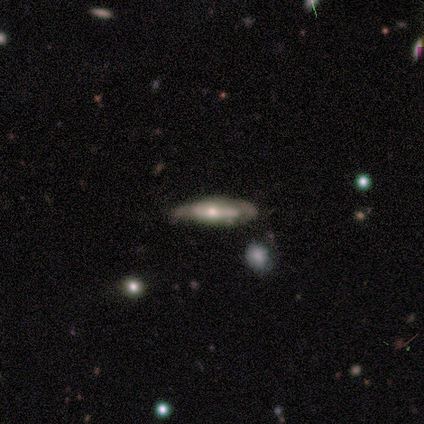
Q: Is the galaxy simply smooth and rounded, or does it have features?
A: featured or disk — 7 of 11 (64%).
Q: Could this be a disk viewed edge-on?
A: yes — 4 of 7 (57%).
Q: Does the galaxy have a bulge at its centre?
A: rounded — 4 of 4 (100%).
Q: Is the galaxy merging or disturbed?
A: none — 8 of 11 (73%).